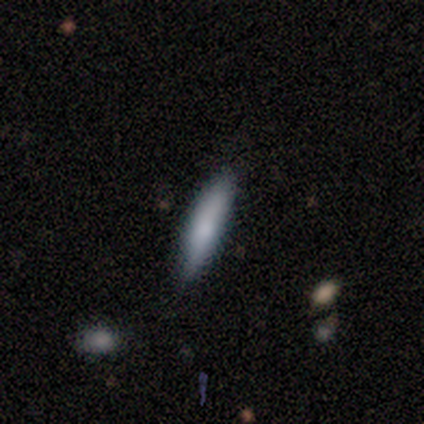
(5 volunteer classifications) This is likely a smooth galaxy (60%). How rounded: clearly cigar-shaped (100%). Merging: clearly none (80%).